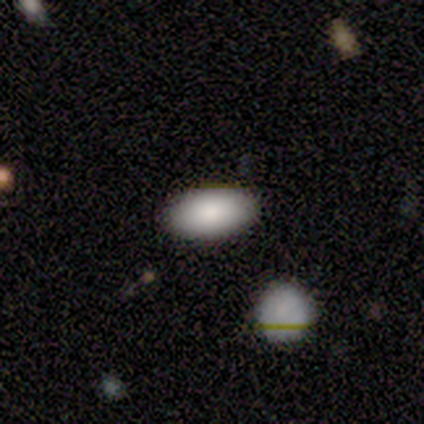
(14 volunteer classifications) smooth-or-featured: smooth: 86% | featured or disk: 7% | star or artifact: 7%
  how-rounded: in between: 100% | round: 0% | cigar-shaped: 0%
  merging: none: 77% | minor disturbance: 15% | merger: 8% | major disturbance: 0%